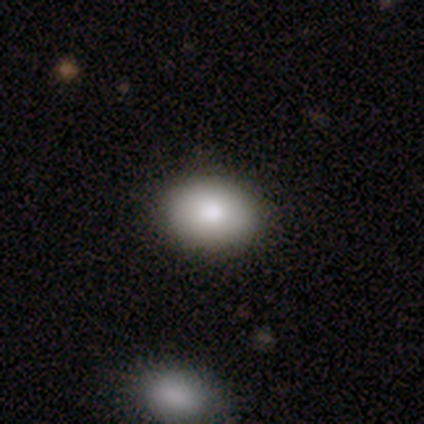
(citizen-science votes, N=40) smooth-or-featured: smooth: 92% | featured or disk: 8% | star or artifact: 0%
  how-rounded: in between: 78% | round: 22% | cigar-shaped: 0%
  merging: none: 55% | merger: 10% | minor disturbance: 0% | major disturbance: 0%